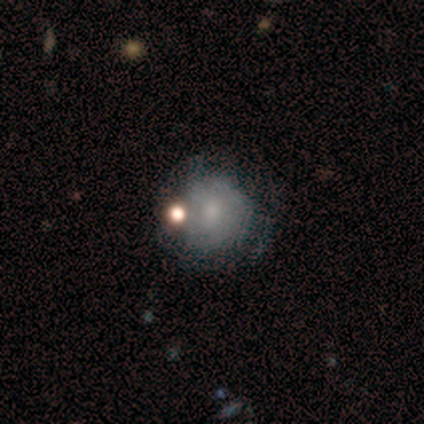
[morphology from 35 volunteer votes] A smooth galaxy with no disk features (54%) that is round (100%). Merging: none (52%).